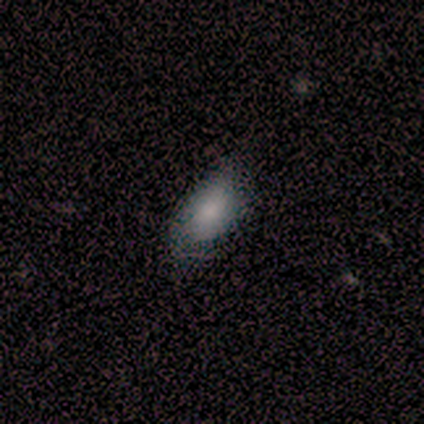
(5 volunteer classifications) A smooth galaxy with no disk features (80%) that is in between round and cigar-shaped (100%).

Vote fractions:
- Smooth or featured? smooth: 80% / star or artifact: 20% / featured or disk: 0%
- How rounded? in between: 100% / round: 0% / cigar-shaped: 0%
- Merging? none: 100% / minor disturbance: 0% / major disturbance: 0% / merger: 0%